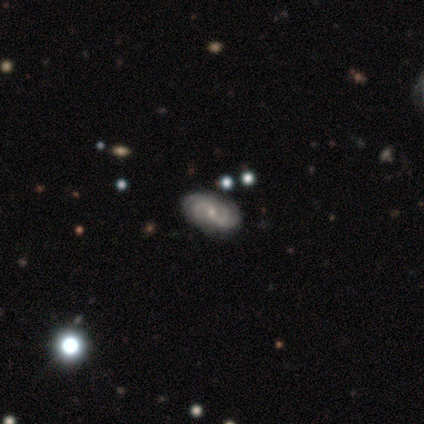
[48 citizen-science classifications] Smooth or featured: featured or disk — 92% (star or artifact — 6%)
Edge-on disk: no — 100%
Bar: no — 55% (weak — 36%)
Spiral arms: yes — 95% (no — 5%)
Spiral winding: medium — 43% (tight — 36%)
Spiral arm count: 2 — 52% (4 — 17%)
Bulge size: small — 70% (moderate — 20%)
Merging: none — 80% (minor disturbance — 16%)